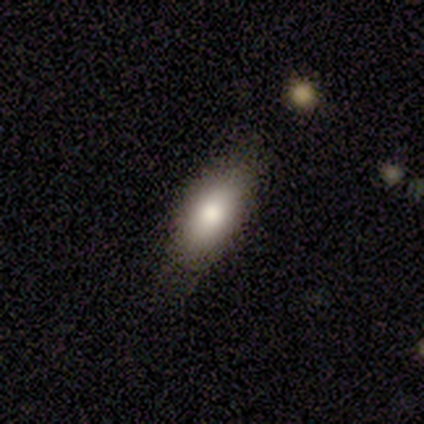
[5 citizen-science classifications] Smooth or featured?
  - smooth: 80% *
  - star or artifact: 20%
  - featured or disk: 0%
How rounded?
  - in between: 75% *
  - cigar-shaped: 25%
  - round: 0%
Merging?
  - none: 100% *
  - minor disturbance: 0%
  - major disturbance: 0%
  - merger: 0%